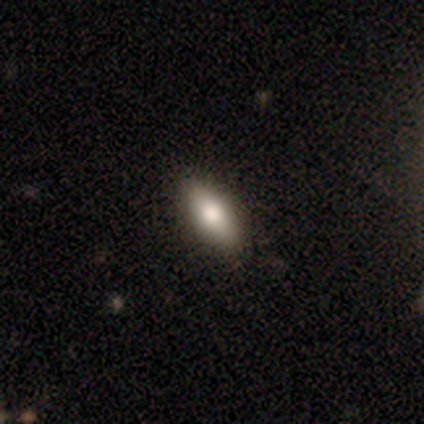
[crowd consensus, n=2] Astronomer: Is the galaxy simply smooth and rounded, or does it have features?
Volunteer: smooth — 50%, tied with star or artifact at 50%.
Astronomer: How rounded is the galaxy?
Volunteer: in between — 100%.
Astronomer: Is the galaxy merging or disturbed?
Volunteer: none — 100%.